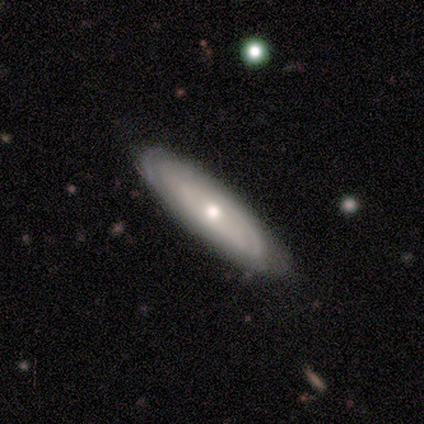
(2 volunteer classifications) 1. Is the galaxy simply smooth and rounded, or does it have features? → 100% smooth, 0% featured or disk, 0% star or artifact.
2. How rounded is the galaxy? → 50% in between (tied), 50% cigar-shaped (tied), 0% round.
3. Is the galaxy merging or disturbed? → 50% none (tied), 50% minor disturbance (tied), 0% major disturbance, 0% merger.